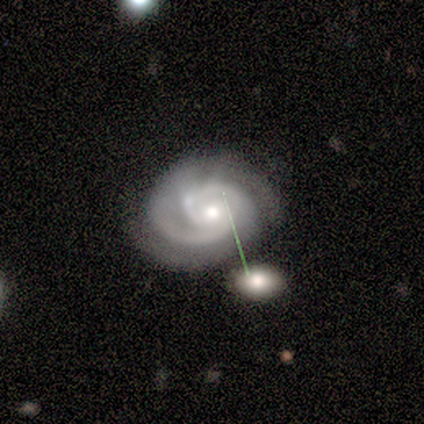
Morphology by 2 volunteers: This is possibly a smooth galaxy (50%, tied with featured or disk). How rounded: clearly in between (100%). Merging: possibly none (50%, tied with merger).